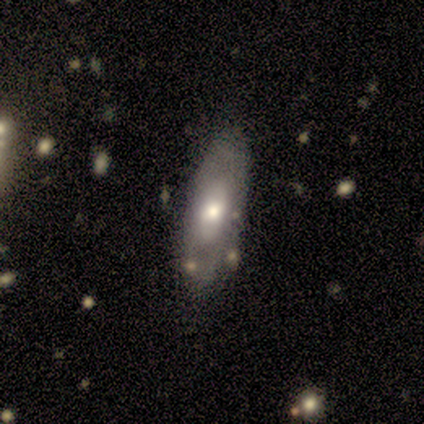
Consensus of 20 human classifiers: smooth_or_featured: smooth (p=0.55) [alt: featured or disk p=0.40]
how_rounded: in between (p=0.55) [alt: cigar-shaped p=0.36]
merging: none (p=0.79) [alt: minor disturbance p=0.16]